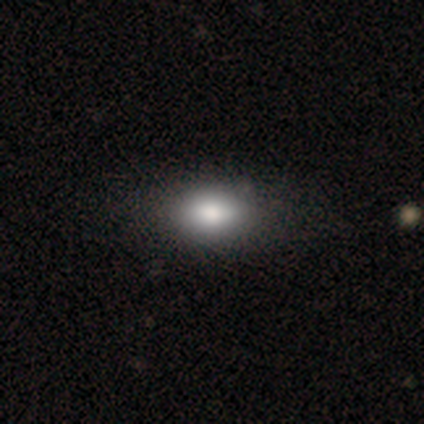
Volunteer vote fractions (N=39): Smooth or featured: smooth — 90% (featured or disk — 8%)
How rounded: in between — 91% (round — 9%)
Merging: none — 55% (minor disturbance — 13%)